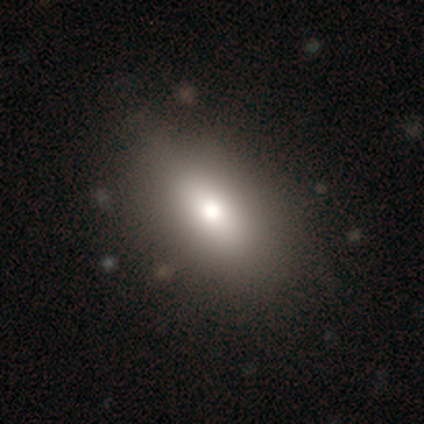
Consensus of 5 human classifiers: Consensus on every question: smooth or featured — smooth (100%); how rounded — in between (100%); merging — none (100%).